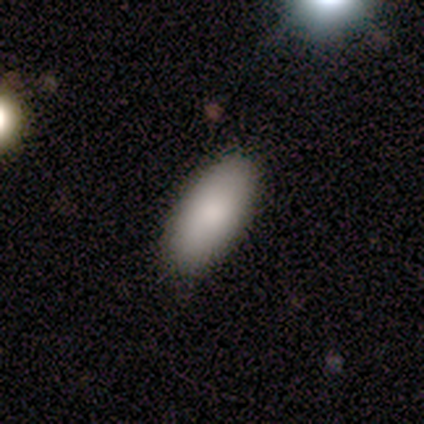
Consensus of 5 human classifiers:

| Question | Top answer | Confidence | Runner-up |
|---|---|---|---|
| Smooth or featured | smooth | 100% | — |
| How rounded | in between | 80% | round (20%) |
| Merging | none | 60% | minor disturbance (20%) |